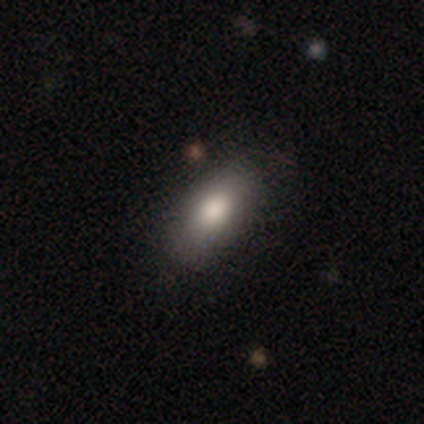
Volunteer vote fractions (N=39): Smooth or featured: smooth — 85% (star or artifact — 13%)
How rounded: in between — 82% (cigar-shaped — 15%)
Merging: none — 88% (minor disturbance — 12%)